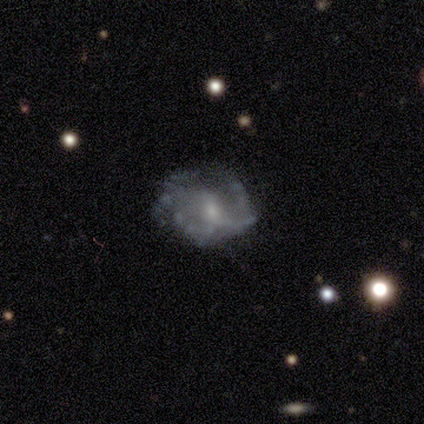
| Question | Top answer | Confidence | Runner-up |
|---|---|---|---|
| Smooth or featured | featured or disk | 100% | — |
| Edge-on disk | no | 100% | — |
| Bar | weak | 60% | no (40%) |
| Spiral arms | yes | 60% | no (40%) |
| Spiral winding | loose | 100% | — |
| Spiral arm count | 2 | 67% | 1 (33%) |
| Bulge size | small | 60% | moderate (40%) |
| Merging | none | 80% | minor disturbance (20%) |